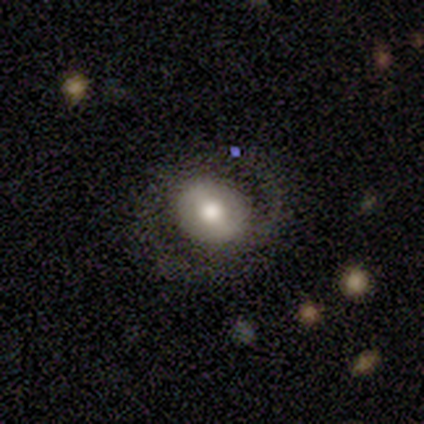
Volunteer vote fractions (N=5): This appears to be a featured or disk galaxy (60%) with no bar (67%), 2 (50%, tied with can't tell) tight (50%, tied with loose) spiral arms (67%) and a moderate central bulge (67%). Merging: none (100%).